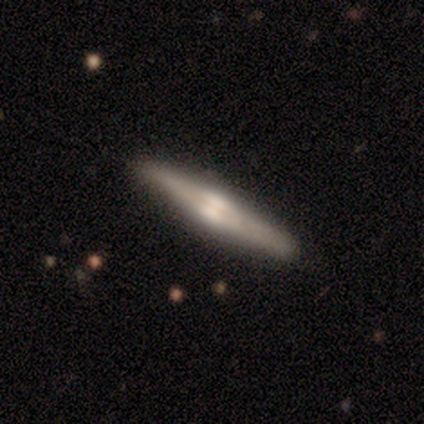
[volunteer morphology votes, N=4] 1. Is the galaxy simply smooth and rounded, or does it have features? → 100% featured or disk, 0% smooth, 0% star or artifact.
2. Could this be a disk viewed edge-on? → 100% yes, 0% no.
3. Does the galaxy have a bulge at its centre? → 50% rounded, 25% boxy, 25% none.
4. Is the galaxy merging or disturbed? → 100% none, 0% minor disturbance, 0% major disturbance, 0% merger.